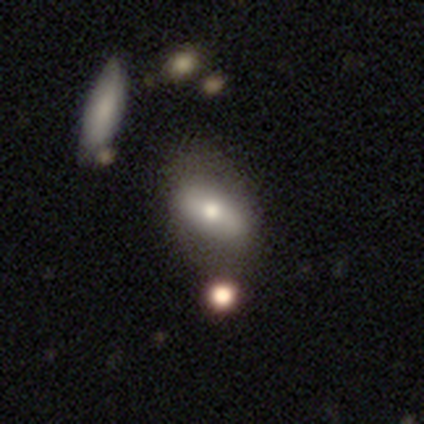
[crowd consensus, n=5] Q: Smooth or featured?
A: smooth (40%); tied with: star or artifact (40%)
Q: How rounded?
A: in between (50%); tied with: cigar-shaped (50%)
Q: Merging?
A: major disturbance (67%); runner-up: none (33%)